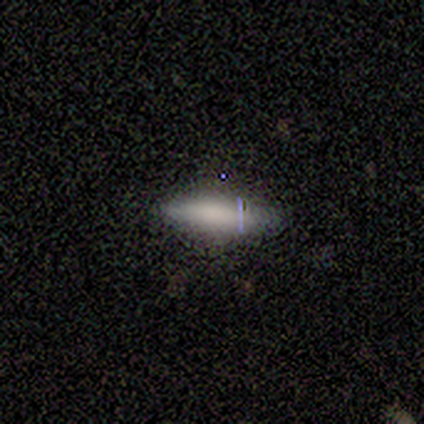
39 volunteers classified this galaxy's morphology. Q: Smooth or featured?
A: smooth (67%); runner-up: featured or disk (18%)
Q: How rounded?
A: cigar-shaped (73%); runner-up: in between (27%)
Q: Merging?
A: none (91%); runner-up: minor disturbance (3%)